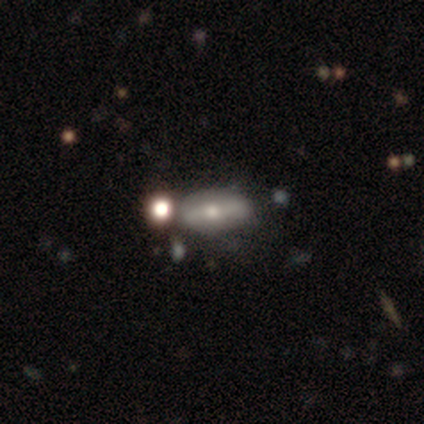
Q: Smooth or featured?
A: smooth (40%); tied with: star or artifact (40%)
Q: How rounded?
A: in between (100%)
Q: Merging?
A: none (100%)